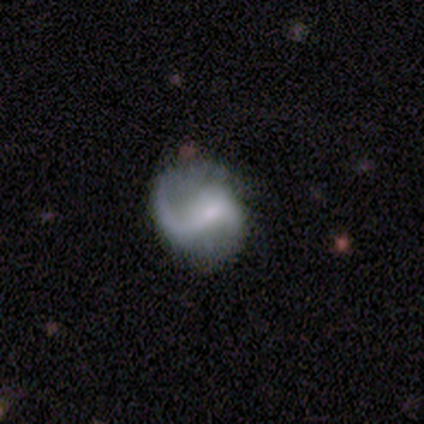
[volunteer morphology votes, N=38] Smooth or featured? featured or disk (71%)
Edge-on disk? no (100%)
Bar? weak (52%)
Spiral arms? yes (93%)
Spiral winding? loose (76%)
Spiral arm count? 2 (52%)
Bulge size? small (48%)
Merging? none (49%)